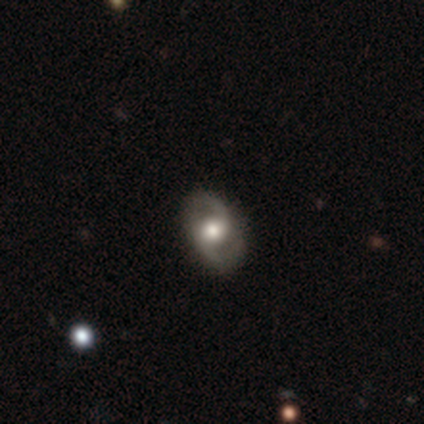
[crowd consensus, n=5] Q: Smooth or featured?
A: featured or disk (100%)
Q: Edge-on disk?
A: no (100%)
Q: Bar?
A: no (60%); runner-up: weak (40%)
Q: Spiral arms?
A: yes (100%)
Q: Spiral winding?
A: medium (80%); runner-up: tight (20%)
Q: Spiral arm count?
A: 2 (100%)
Q: Bulge size?
A: moderate (80%); runner-up: large (20%)
Q: Merging?
A: none (80%); runner-up: major disturbance (20%)